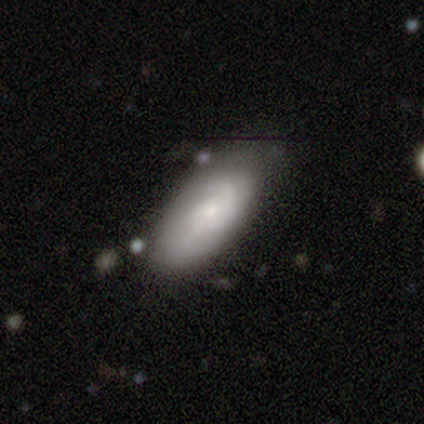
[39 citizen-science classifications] Volunteers were most divided on "spiral winding": tight: 50%, medium: 36%, loose: 14%. Remaining: edge-on disk — no (96%); spiral arms — yes (96%); bar — no (78%); smooth or featured — featured or disk (62%); bulge size — small (61%); spiral arm count — can't tell (50%); merging — none (47%).